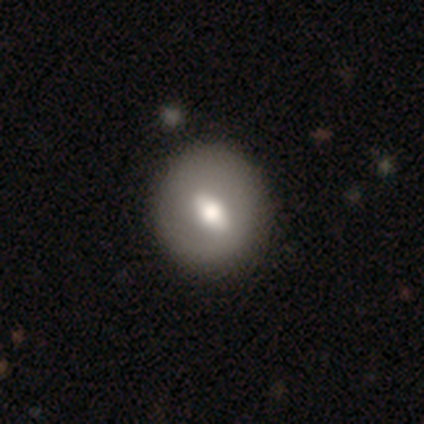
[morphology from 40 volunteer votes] Smooth or featured? featured or disk (55%)
Edge-on disk? no (91%)
Bar? weak (40%)
Spiral arms? no (85%)
Bulge size? moderate (40%)
Merging? none (72%)